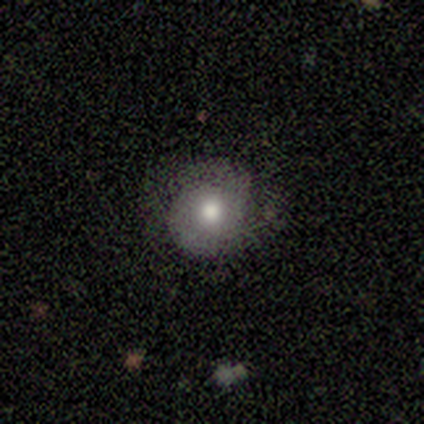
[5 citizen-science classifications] smooth_or_featured: smooth (p=0.80) [alt: featured or disk p=0.20]
how_rounded: round (p=0.50) [tied with: in between p=0.50]
merging: none (p=0.80) [alt: minor disturbance p=0.20]